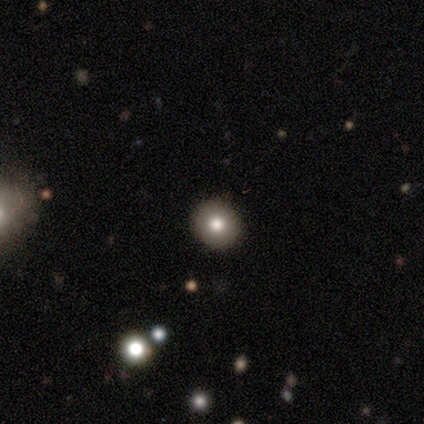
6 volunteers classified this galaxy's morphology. Smooth or featured: featured or disk — 50% (smooth — 33%)
Edge-on disk: no — 67% (yes — 33%)
Bar: no — 100%
Spiral arms: no — 100%
Bulge size: moderate — 100%
Merging: none — 80% (minor disturbance — 20%)